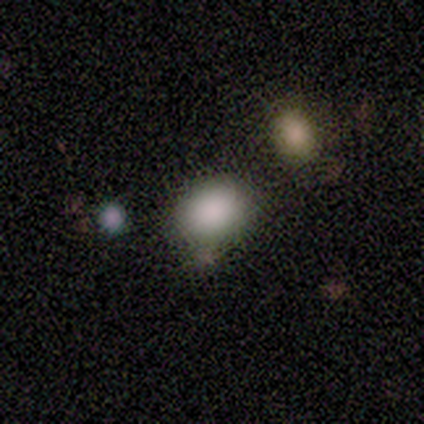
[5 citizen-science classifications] Smooth or featured: smooth — 80% (star or artifact — 20%)
How rounded: in between — 100%
Merging: none — 75% (minor disturbance — 25%)